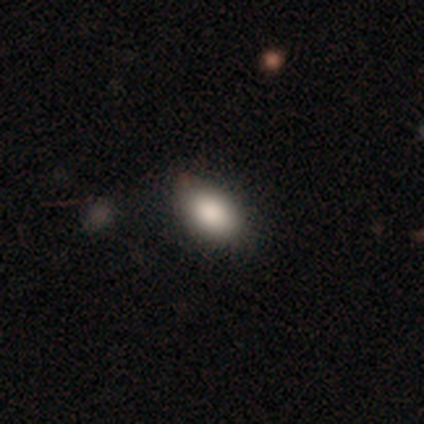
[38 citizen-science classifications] A smooth galaxy with no disk features (84%) that is in between round and cigar-shaped (84%).

Vote fractions:
- Smooth or featured? smooth: 84% / star or artifact: 11% / featured or disk: 5%
- How rounded? in between: 84% / round: 12% / cigar-shaped: 3%
- Merging? none: 71% / minor disturbance: 18% / major disturbance: 6% / merger: 6%